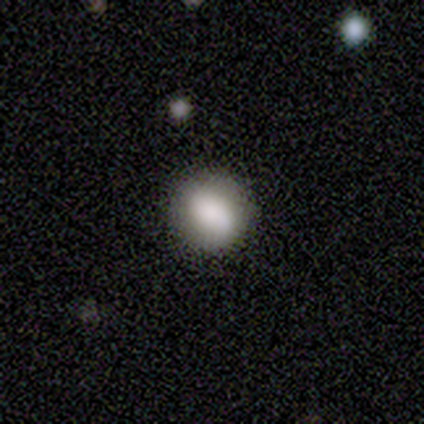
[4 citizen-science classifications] This appears to be a smooth galaxy with no disk features (50%) that is round (50%, tied with in between). Merging: none (67%).